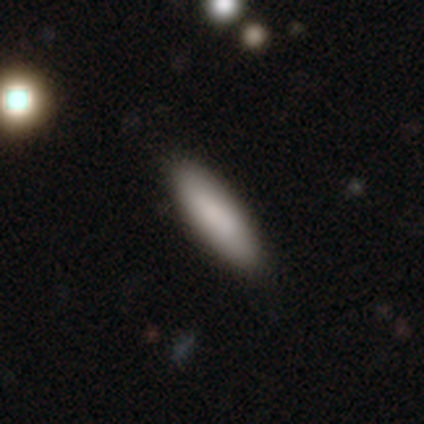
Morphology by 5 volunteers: type=smooth (100%); roundness=cigar-shaped (80%); merging=none (100%).